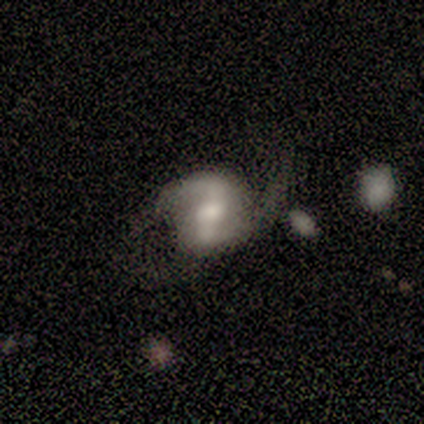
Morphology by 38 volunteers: Smooth or featured?
  - featured or disk: 84% *
  - star or artifact: 11%
  - smooth: 5%
Edge-on disk?
  - no: 100% *
  - yes: 0%
Bar?
  - strong: 47% *
  - weak: 44%
  - no: 9%
Spiral arms?
  - yes: 97% *
  - no: 3%
Spiral winding?
  - loose: 48% *
  - medium: 45%
  - tight: 6%
Spiral arm count?
  - 2: 87% *
  - 3: 6%
  - more than 4: 3%
  - can't tell: 3%
  - 1: 0%
  - 4: 0%
Bulge size?
  - moderate: 59% *
  - small: 19%
  - large: 16%
  - none: 6%
  - dominant: 0%
Merging?
  - none: 50% *
  - minor disturbance: 26%
  - major disturbance: 21%
  - merger: 3%